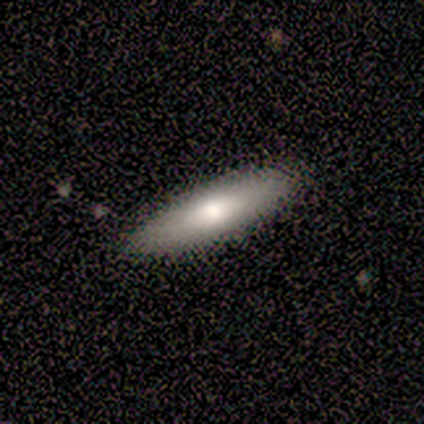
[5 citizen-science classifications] A featured or disk galaxy (60%) with no bar (100%), no spiral arms (100%) and a moderate central bulge (100%). Merging: none (100%).